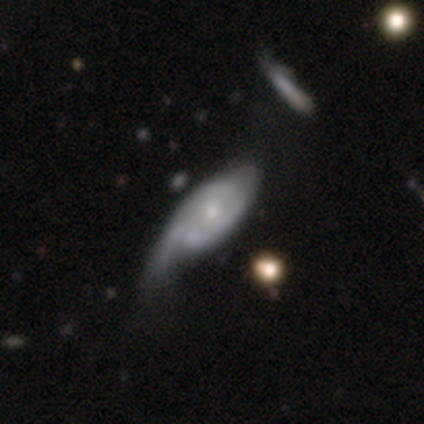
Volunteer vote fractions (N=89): Volunteers were most divided on "spiral arm count": can't tell: 33%, 2: 31%, 1: 25%, 3: 10%, 4: 0%, more than 4: 0%. Remaining: edge-on disk — no (88%); spiral arms — yes (85%); bar — no (77%); smooth or featured — featured or disk (76%); bulge size — small (75%); spiral winding — medium (45%); merging — major disturbance (42%).